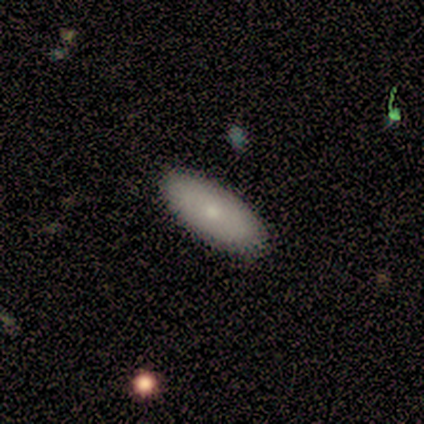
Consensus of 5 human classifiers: smooth_or_featured: smooth (p=1.00)
how_rounded: in between (p=0.80) [alt: cigar-shaped p=0.20]
merging: none (p=0.80) [alt: minor disturbance p=0.20]